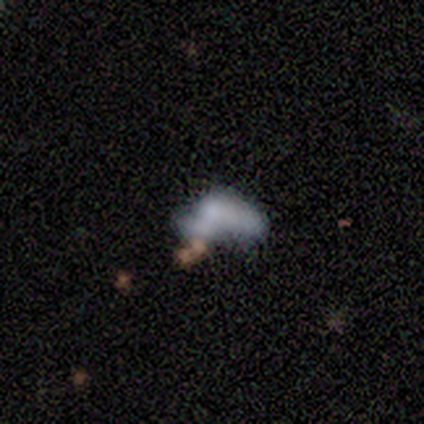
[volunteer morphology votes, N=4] A featured or disk galaxy (50%) with no bar (100%), no spiral arms (100%) and a moderate central bulge (50%, tied with none). Merging: major disturbance (67%).